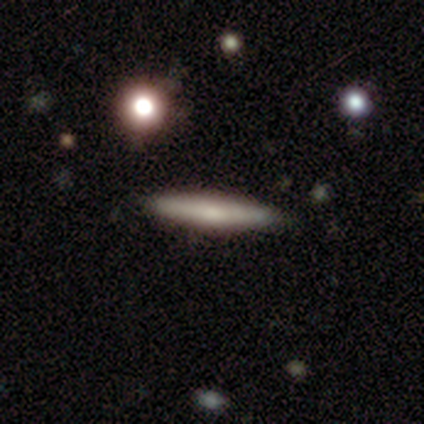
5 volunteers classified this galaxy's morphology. smooth 80%, featured or disk 20%, star or artifact 0%. Down the decision tree: how rounded — cigar-shaped (100%); merging — none (100%).